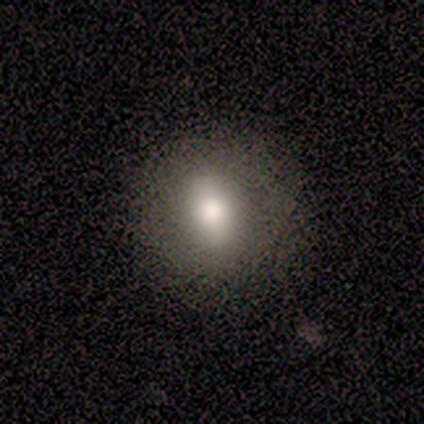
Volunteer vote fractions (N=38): A smooth galaxy with no disk features (74%) that is round (50%, tied with in between).

Vote fractions:
- Smooth or featured? smooth: 74% / featured or disk: 24% / star or artifact: 3%
- How rounded? round: 50% (tied) / in between: 50% (tied) / cigar-shaped: 0%
- Merging? none: 73% / minor disturbance: 5% / major disturbance: 0% / merger: 0%